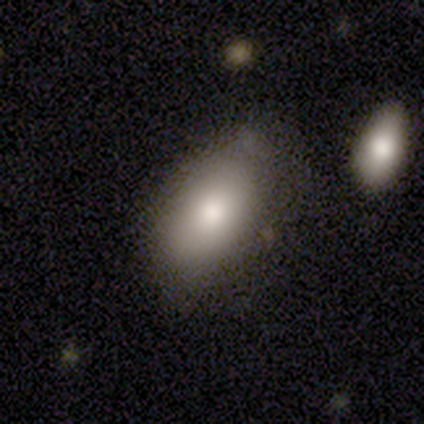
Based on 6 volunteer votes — Volunteers were most divided on "smooth or featured": smooth: 67%, featured or disk: 17%, star or artifact: 17%. More confident: how rounded — in between (100%); merging — none (100%).